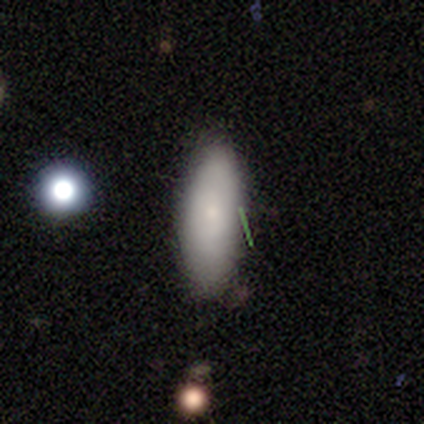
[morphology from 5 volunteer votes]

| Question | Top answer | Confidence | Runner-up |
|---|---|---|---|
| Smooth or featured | smooth | 80% | featured or disk (20%) |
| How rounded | in between | 75% | cigar-shaped (25%) |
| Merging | none | 100% | — |